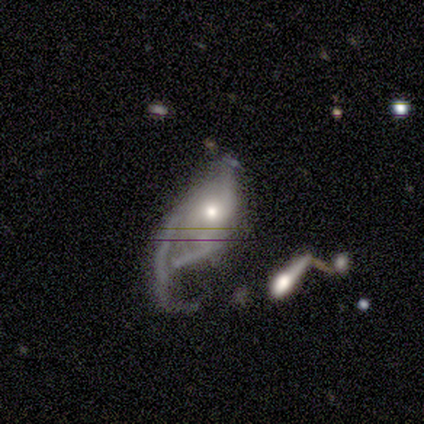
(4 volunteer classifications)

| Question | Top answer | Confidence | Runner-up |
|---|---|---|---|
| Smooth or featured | featured or disk | 75% | star or artifact (25%) |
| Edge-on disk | no | 100% | — |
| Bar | no | 67% | weak (33%) |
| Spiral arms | no | 67% | yes (33%) |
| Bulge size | large | 33% | tied: moderate (33%), small (33%) |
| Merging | none | 33% | tied: major disturbance (33%), merger (33%) |